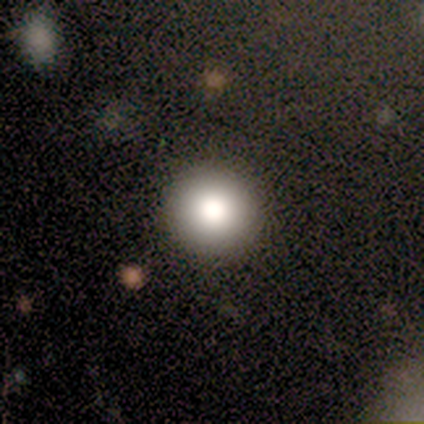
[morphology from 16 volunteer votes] A smooth galaxy with no disk features (88%) that is round (93%).

Vote fractions:
- Smooth or featured? smooth: 88% / featured or disk: 6% / star or artifact: 6%
- How rounded? round: 93% / in between: 7% / cigar-shaped: 0%
- Merging? none: 100% / minor disturbance: 0% / major disturbance: 0% / merger: 0%